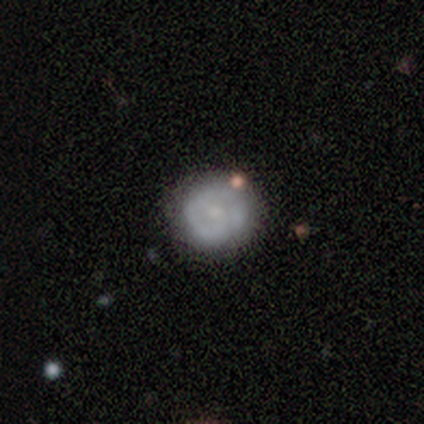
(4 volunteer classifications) smooth 75%, featured or disk 25%, star or artifact 0%. Down the decision tree: how rounded — round (100%); merging — none (100%).